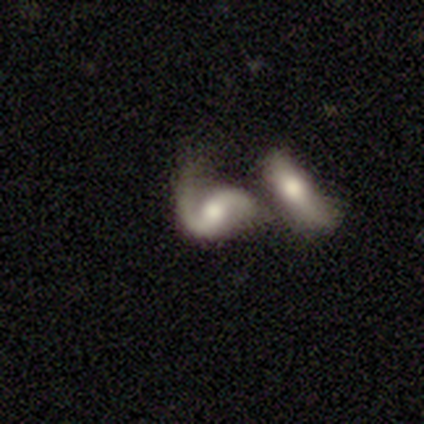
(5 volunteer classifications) Morphology: type=featured or disk (100%); edge-on=no (100%); bar=no (80%); spiral arms=yes (80%); winding=medium (100%); arm count=2 (75%); bulge=moderate (100%); merging=merger (100%).